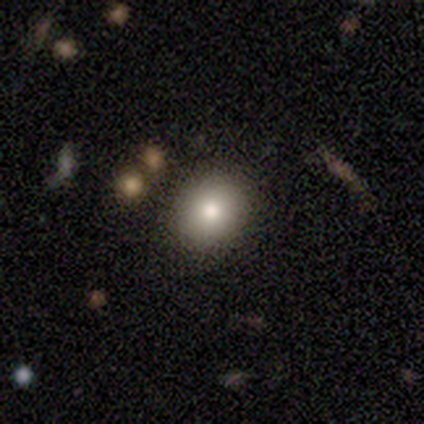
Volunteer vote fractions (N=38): A smooth galaxy with no disk features (95%) that is round (61%).

Vote fractions:
- Smooth or featured? smooth: 95% / star or artifact: 5% / featured or disk: 0%
- How rounded? round: 61% / in between: 39% / cigar-shaped: 0%
- Merging? none: 94% / minor disturbance: 6% / major disturbance: 0% / merger: 0%